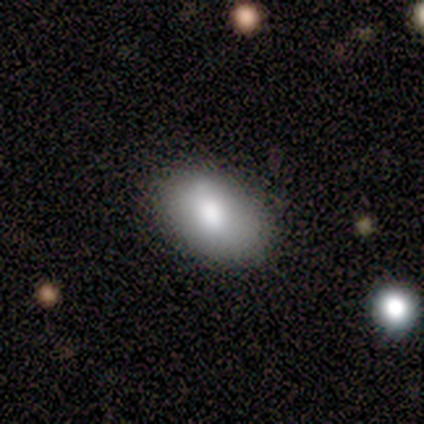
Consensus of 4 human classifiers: Smooth or featured? 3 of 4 (75%) said smooth. How rounded? 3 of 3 (100%) said in between. Merging? 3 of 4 (75%) said none.